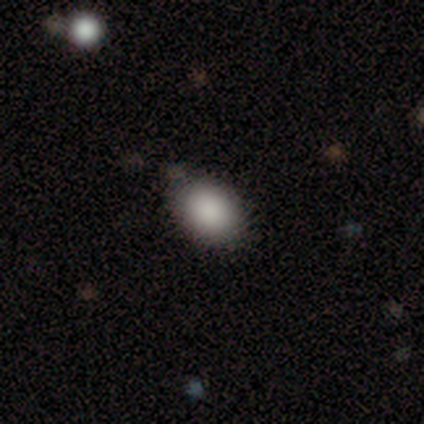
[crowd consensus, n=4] Smooth or featured?
  - smooth: 75% *
  - star or artifact: 25%
  - featured or disk: 0%
How rounded?
  - in between: 100% *
  - round: 0%
  - cigar-shaped: 0%
Merging?
  - none: 100% *
  - minor disturbance: 0%
  - major disturbance: 0%
  - merger: 0%